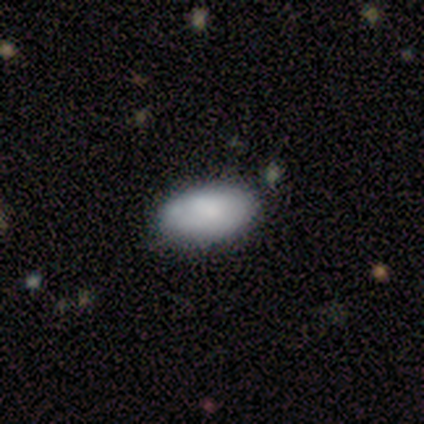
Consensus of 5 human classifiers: Q: Smooth or featured?
A: smooth (40%); tied with: featured or disk (40%)
Q: How rounded?
A: in between (100%)
Q: Merging?
A: none (50%); tied with: minor disturbance (50%)